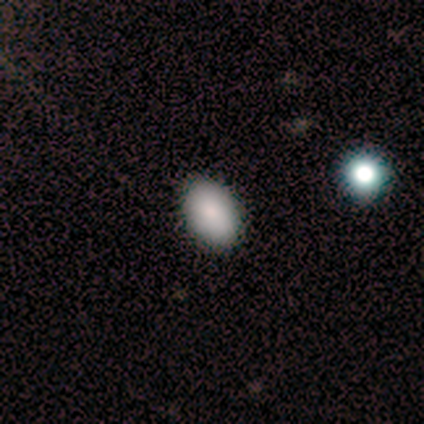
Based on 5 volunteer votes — Smooth or featured? 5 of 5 (100%) said smooth. How rounded? 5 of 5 (100%) said in between. Merging? 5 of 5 (100%) said none.